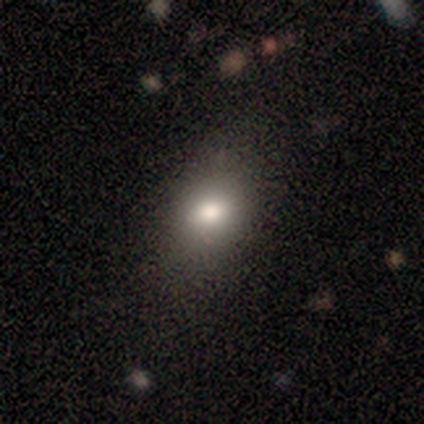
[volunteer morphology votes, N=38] This is likely a smooth galaxy (71%). How rounded: likely in between (67%). Merging: likely none (74%).